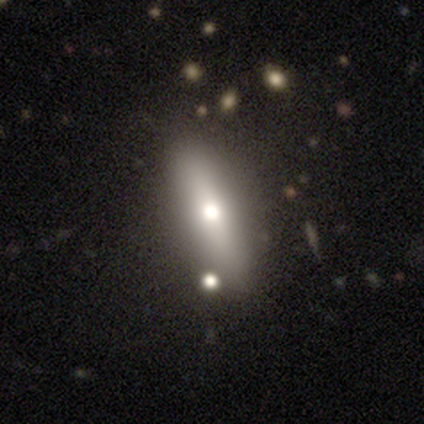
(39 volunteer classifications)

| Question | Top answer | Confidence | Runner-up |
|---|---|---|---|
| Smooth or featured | smooth | 64% | featured or disk (26%) |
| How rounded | cigar-shaped | 52% | in between (48%) |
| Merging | none | 83% | minor disturbance (9%) |